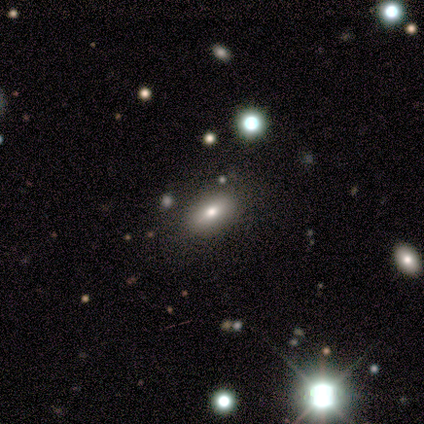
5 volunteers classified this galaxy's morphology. Smooth or featured: smooth — 40% (tied with star or artifact — 40%)
How rounded: in between — 100%
Merging: none — 100%